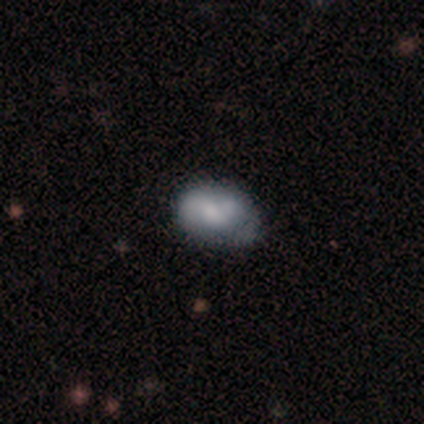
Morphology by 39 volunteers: smooth 62%, featured or disk 31%, star or artifact 8%. Down the decision tree: how rounded — in between (92%); merging — none (39%).